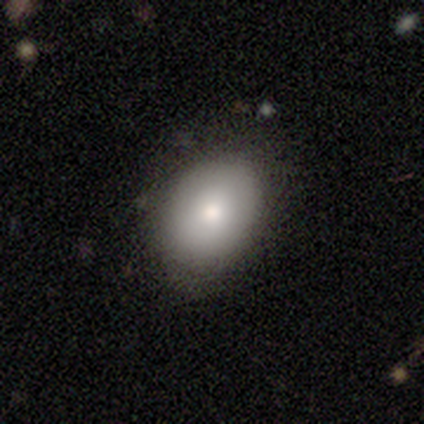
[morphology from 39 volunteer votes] smooth-or-featured: smooth: 77% | featured or disk: 15% | star or artifact: 8%
  how-rounded: in between: 80% | round: 20% | cigar-shaped: 0%
  merging: none: 69% | minor disturbance: 28% | major disturbance: 3% | merger: 0%